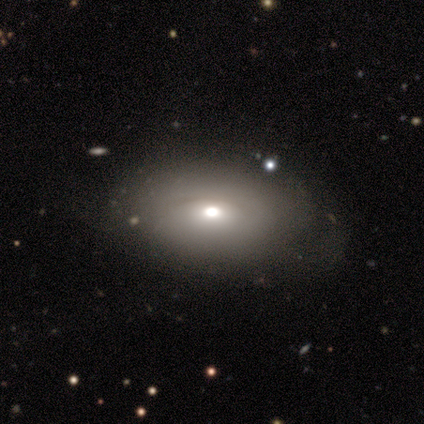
Q: Smooth or featured?
A: featured or disk (51%); runner-up: smooth (44%)
Q: Edge-on disk?
A: no (85%); runner-up: yes (15%)
Q: Bar?
A: no (71%); runner-up: weak (18%)
Q: Spiral arms?
A: no (94%); runner-up: yes (6%)
Q: Bulge size?
A: moderate (65%); runner-up: large (12%)
Q: Merging?
A: none (59%); runner-up: minor disturbance (27%)